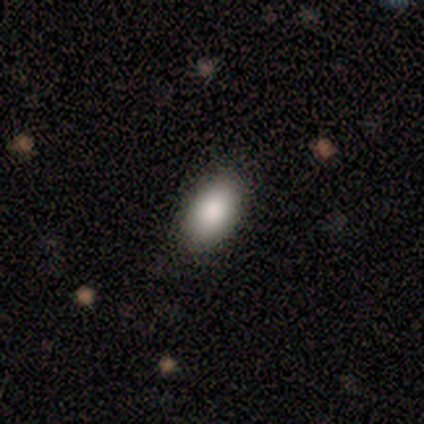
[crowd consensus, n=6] smooth 100%, featured or disk 0%, star or artifact 0%. Down the decision tree: how rounded — in between (100%); merging — none (100%).